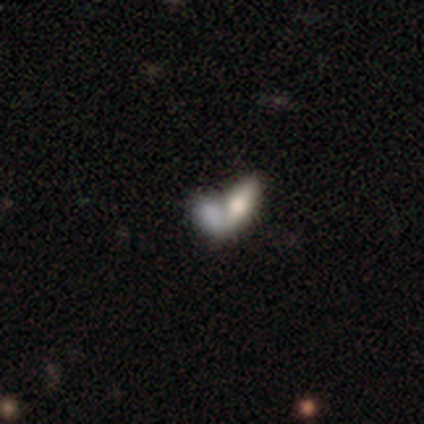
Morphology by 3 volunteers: Smooth or featured? 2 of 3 (67%) said featured or disk. Edge-on disk? 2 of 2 (100%) said no. Bar? 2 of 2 (100%) said no. Spiral arms? 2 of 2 (100%) said no. Bulge size? 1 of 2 (50%, tied with moderate) said large. Merging? 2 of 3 (67%) said merger.